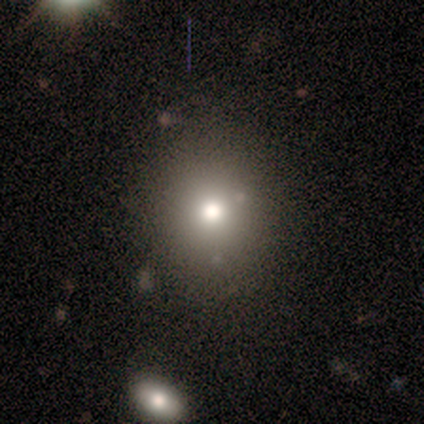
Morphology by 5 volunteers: type=smooth (60%); roundness=round (100%); merging=none (100%).